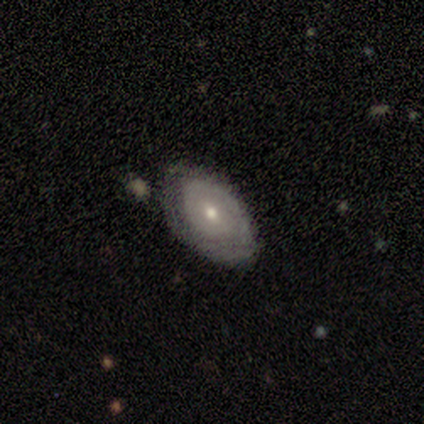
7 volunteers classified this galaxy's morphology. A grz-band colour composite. It shows a featured or disk galaxy (43%) with a weak bar (67%), no spiral arms (67%) and a small central bulge (100%). Merging: none (60%).